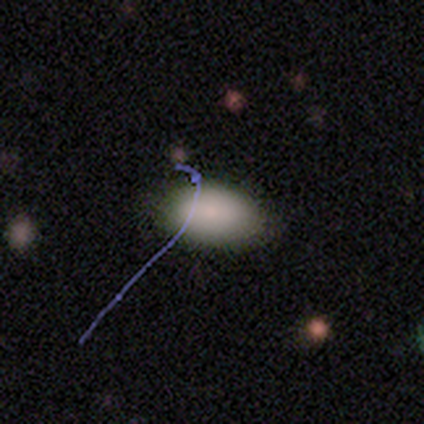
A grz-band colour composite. It shows a smooth galaxy with no disk features (100%) that is in between round and cigar-shaped (100%). Merging: none (100%).